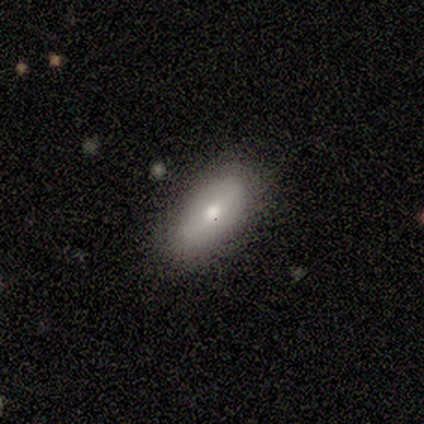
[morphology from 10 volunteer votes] Overall: smooth (90%). How rounded: in between (100%). Merging: none (89%).